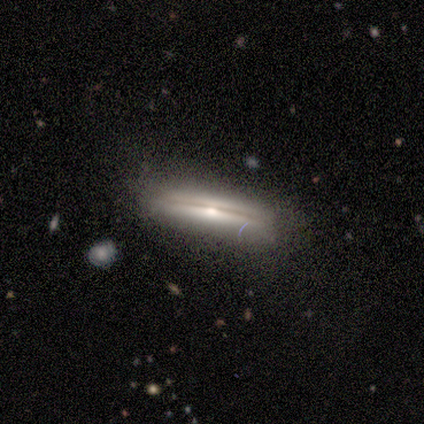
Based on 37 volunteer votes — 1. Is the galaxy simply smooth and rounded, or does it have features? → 65% featured or disk, 30% smooth, 5% star or artifact.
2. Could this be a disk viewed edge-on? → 92% yes, 8% no.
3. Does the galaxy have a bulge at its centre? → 77% rounded, 14% boxy, 9% none.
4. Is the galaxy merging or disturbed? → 77% none, 17% minor disturbance, 6% major disturbance, 0% merger.